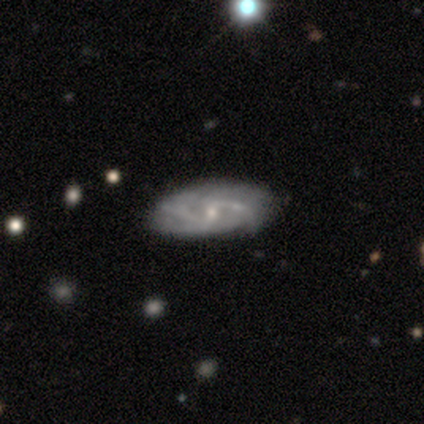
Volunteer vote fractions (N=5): Smooth or featured? featured or disk (100%)
Edge-on disk? no (100%)
Bar? weak (40%, tied with no)
Spiral arms? yes (100%)
Spiral winding? tight (60%)
Spiral arm count? 2 (40%, tied with 3)
Bulge size? small (80%)
Merging? none (80%)